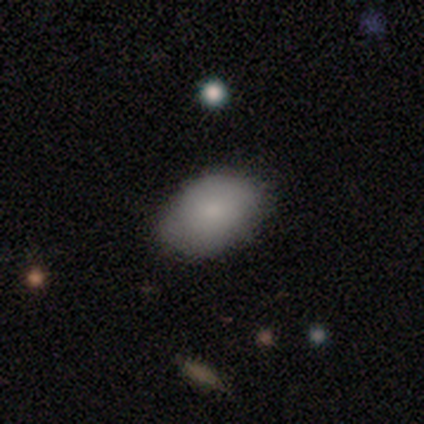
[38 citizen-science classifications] This is clearly a smooth galaxy (89%). How rounded: clearly in between (97%). Merging: likely none (78%).